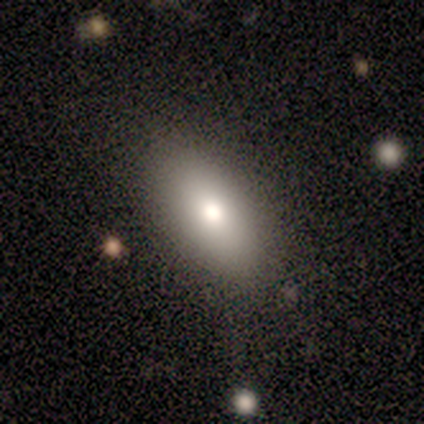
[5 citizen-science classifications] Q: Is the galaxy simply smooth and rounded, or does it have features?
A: smooth — 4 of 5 (80%).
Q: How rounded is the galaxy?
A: in between — 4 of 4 (100%).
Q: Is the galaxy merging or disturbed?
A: none — 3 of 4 (75%).